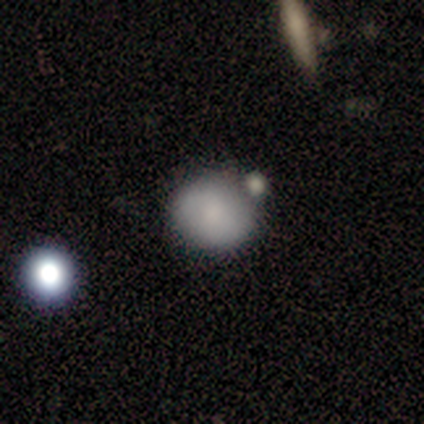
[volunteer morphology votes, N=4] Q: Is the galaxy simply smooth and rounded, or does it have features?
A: star or artifact — 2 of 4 (50%).